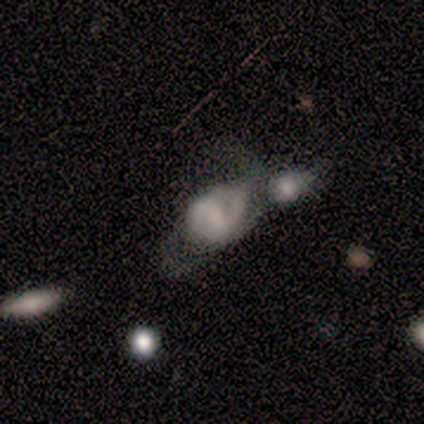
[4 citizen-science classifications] Volunteers were most divided on "spiral arms" (2-way tie): yes: 50%, no: 50%; "bulge size" (2-way tie): small: 50%, none: 50%, dominant: 0%, large: 0%, moderate: 0%. More confident: edge-on disk — no (100%); bar — weak (100%); spiral winding — medium (100%); spiral arm count — 4 (100%); merging — merger (100%); smooth or featured — featured or disk (50%).